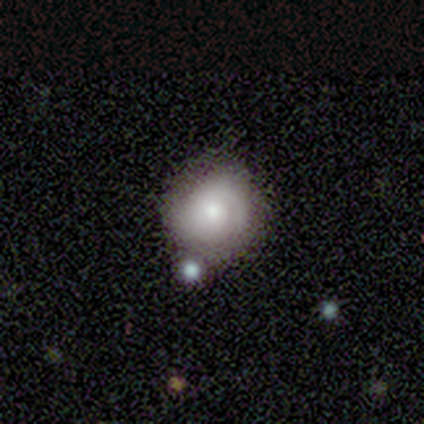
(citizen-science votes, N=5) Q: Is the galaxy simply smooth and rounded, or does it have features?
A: featured or disk — 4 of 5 (80%).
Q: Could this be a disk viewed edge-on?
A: no — 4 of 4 (100%).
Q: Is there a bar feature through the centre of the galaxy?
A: no — 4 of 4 (100%).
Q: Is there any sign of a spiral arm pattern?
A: yes — 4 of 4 (100%).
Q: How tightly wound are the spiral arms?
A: tight — 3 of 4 (75%).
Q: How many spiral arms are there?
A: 1 — 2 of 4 (50%, tied with can't tell).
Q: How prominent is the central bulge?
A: moderate — 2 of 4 (50%, tied with small).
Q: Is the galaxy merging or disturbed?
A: none — 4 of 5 (80%).